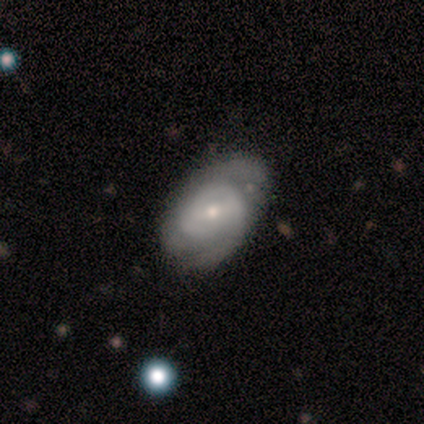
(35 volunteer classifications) This is likely a featured or disk galaxy (74%). It is clearly not viewed edge-on (92%). Bar: possibly no (46%). Spiral arm pattern: clearly yes (83%). Spiral arm count: marginally 2 (30%, tied with can't tell). Spiral winding: marginally tight (35%, tied with medium). Central bulge: likely small (79%). Merging: possibly none (53%).